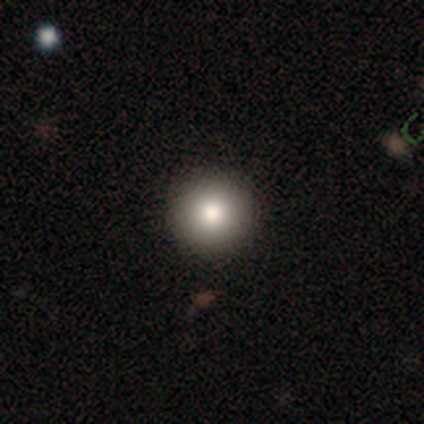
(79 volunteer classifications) Smooth or featured? 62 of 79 (78%) said smooth. How rounded? 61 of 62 (98%) said round. Merging? 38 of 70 (54%) said none.